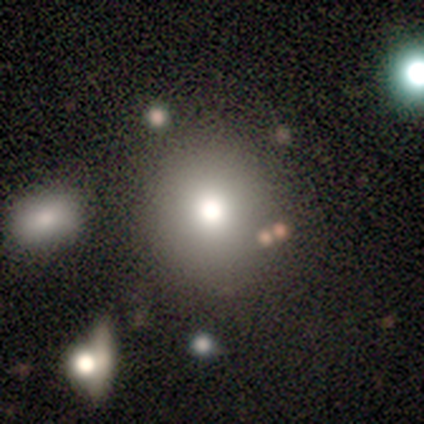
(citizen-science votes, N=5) smooth_or_featured: smooth (p=1.00)
how_rounded: round (p=1.00)
merging: none (p=0.80) [alt: minor disturbance p=0.20]